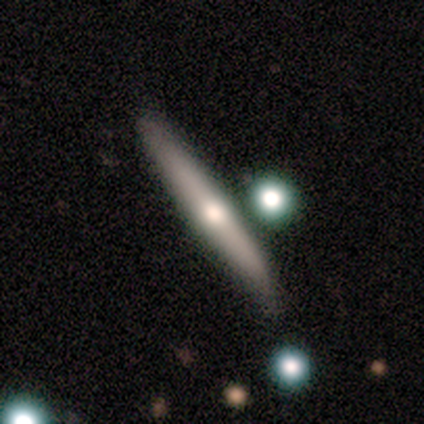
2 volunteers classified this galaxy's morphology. A smooth galaxy with no disk features (50%, tied with featured or disk) that is in between round and cigar-shaped (100%). Merging: none (100%).